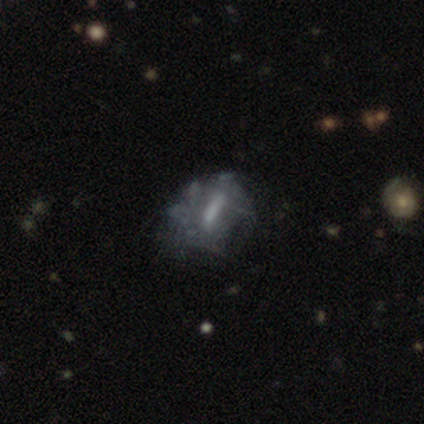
Morphology: type=featured or disk (66%); edge-on=no (96%); bar=strong (46%); spiral arms=no (71%); bulge=none (38%); merging=none (58%).